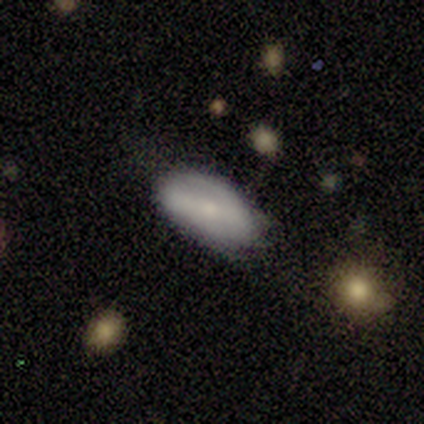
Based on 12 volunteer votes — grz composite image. It shows a smooth galaxy with no disk features (50%) that is in between round and cigar-shaped (50%). Merging: none (73%).